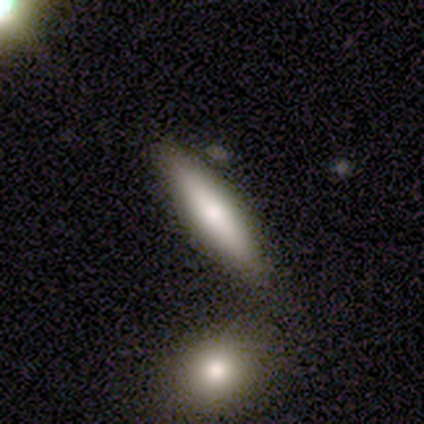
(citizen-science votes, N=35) Volunteers were most divided on "how rounded": cigar-shaped: 67%, in between: 33%, round: 0%. More confident: smooth or featured — smooth (77%); merging — none (68%).